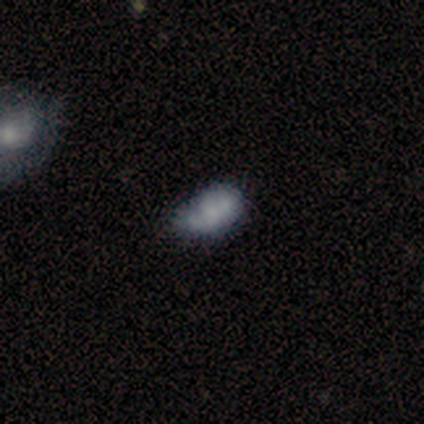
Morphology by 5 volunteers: Smooth or featured: smooth — 60% (featured or disk — 40%)
How rounded: in between — 100%
Merging: minor disturbance — 60% (none — 20%)